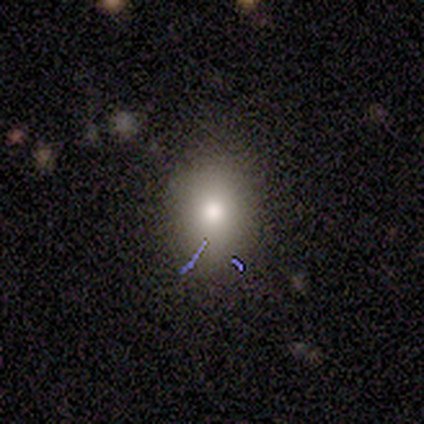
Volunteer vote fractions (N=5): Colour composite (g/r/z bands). It shows a smooth galaxy with no disk features (100%) that is round (60%). Merging: none (60%).